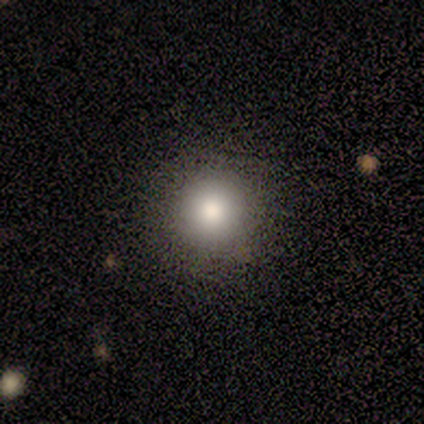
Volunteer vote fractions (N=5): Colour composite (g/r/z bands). It shows a smooth galaxy with no disk features (80%) that is round (100%). Merging: none (50%).